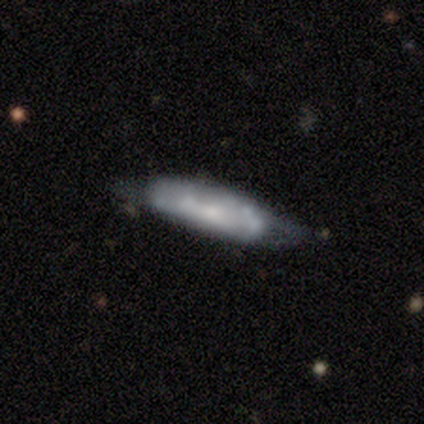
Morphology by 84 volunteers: Overall: featured or disk (54%; smooth 44%). Edge-on disk: no (60%; yes 40%). Bar: no (74%). Spiral arms: no (59%; yes 41%). Bulge size: small (59%; none 26%). Merging: none (57%; minor disturbance 28%).